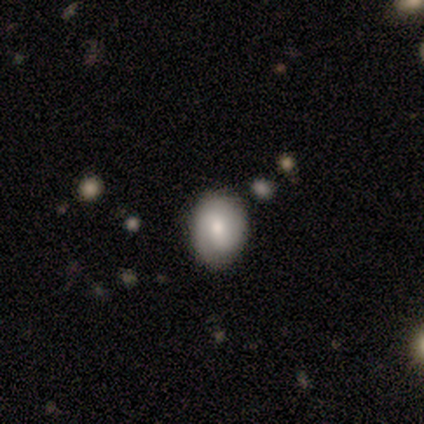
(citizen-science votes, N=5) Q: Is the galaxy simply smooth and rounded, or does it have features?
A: smooth — 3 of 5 (60%).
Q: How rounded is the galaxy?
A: round — 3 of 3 (100%).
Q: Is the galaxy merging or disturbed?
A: none — 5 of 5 (100%).